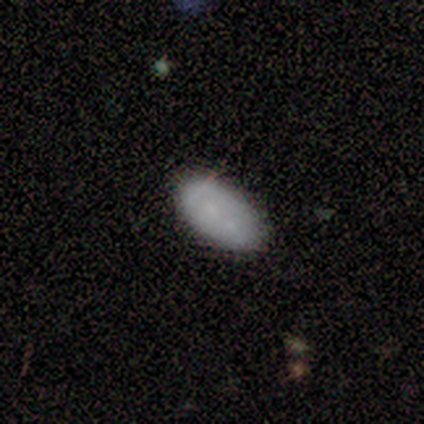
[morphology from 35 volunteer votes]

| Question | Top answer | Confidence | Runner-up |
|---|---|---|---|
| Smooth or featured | smooth | 77% | featured or disk (23%) |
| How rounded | in between | 96% | round (4%) |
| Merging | none | 54% | merger (26%) |